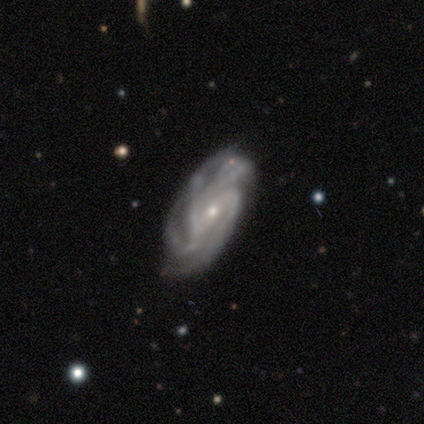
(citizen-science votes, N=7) A featured or disk galaxy (86%) with a strong bar (60%), tight (80%) spiral arms (100%) and a small central bulge (100%). Merging: none (57%).